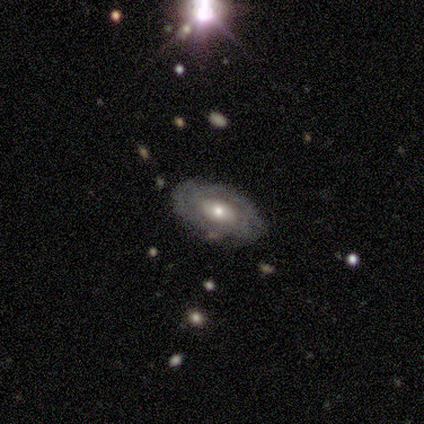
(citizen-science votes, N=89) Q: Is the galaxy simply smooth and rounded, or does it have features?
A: featured or disk — 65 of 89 (73%).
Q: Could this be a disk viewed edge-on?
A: no — 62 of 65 (95%).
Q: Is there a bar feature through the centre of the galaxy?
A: no — 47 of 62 (76%).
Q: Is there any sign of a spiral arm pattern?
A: yes — 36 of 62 (58%).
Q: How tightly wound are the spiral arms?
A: tight — 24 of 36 (67%).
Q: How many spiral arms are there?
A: can't tell — 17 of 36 (47%).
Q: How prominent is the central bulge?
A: moderate — 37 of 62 (60%).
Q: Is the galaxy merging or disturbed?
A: none — 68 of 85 (80%).